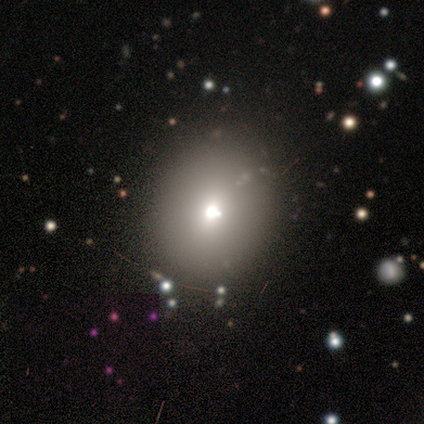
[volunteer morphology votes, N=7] type=smooth (57%); roundness=round (75%); merging=none (100%).